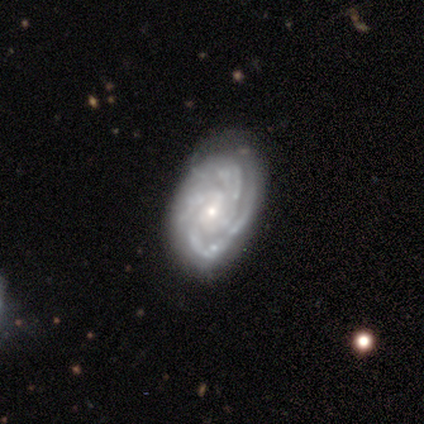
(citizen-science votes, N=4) A featured or disk galaxy (100%) with a weak bar (50%, tied with no), 3 (75%) tight (100%) spiral arms (100%) and a small central bulge (100%).

Vote fractions:
- Smooth or featured? featured or disk: 100% / smooth: 0% / star or artifact: 0%
- Edge-on disk? no: 100% / yes: 0%
- Bar? weak: 50% (tied) / no: 50% (tied) / strong: 0%
- Spiral arms? yes: 100% / no: 0%
- Spiral winding? tight: 100% / medium: 0% / loose: 0%
- Spiral arm count? 3: 75% / 4: 25% / 1: 0% / 2: 0% / more than 4: 0% / can't tell: 0%
- Bulge size? small: 100% / dominant: 0% / large: 0% / moderate: 0% / none: 0%
- Merging? none: 50% (tied) / minor disturbance: 50% (tied) / major disturbance: 0% / merger: 0%